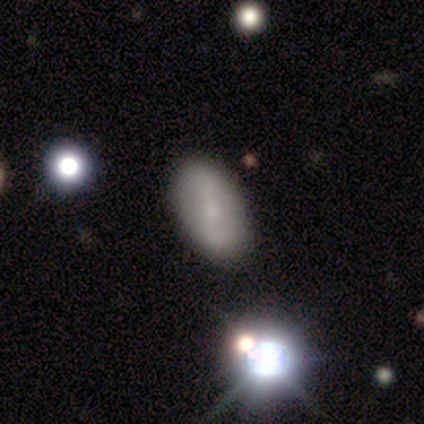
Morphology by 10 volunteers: A smooth galaxy with no disk features (80%) that is in between round and cigar-shaped (88%). Merging: none (100%).